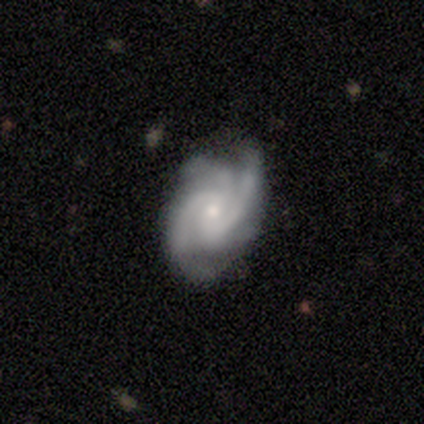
smooth-or-featured: featured or disk: 92% | star or artifact: 5% | smooth: 3%
  disk-edge-on: no: 94% | yes: 6%
    bar: no: 53% | weak: 38% | strong: 9%
    has-spiral-arms: yes: 100% | no: 0%
      spiral-winding: medium: 59% | tight: 38% | loose: 3%
      spiral-arm-count: 3: 56% | 2: 26% | 4: 15% | can't tell: 3% | 1: 0% | more than 4: 0%
    bulge-size: small: 62% | moderate: 32% | large: 3% | none: 3% | dominant: 0%
  merging: none: 70% | minor disturbance: 27% | major disturbance: 3% | merger: 0%